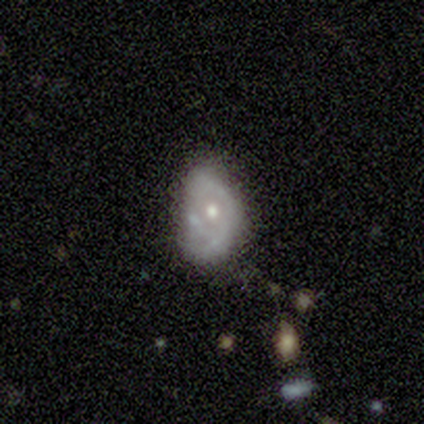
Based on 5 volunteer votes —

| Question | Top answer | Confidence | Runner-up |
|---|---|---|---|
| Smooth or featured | featured or disk | 60% | smooth (20%) |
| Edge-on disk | no | 100% | — |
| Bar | no | 67% | weak (33%) |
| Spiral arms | no | 67% | yes (33%) |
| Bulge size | moderate | 100% | — |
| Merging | none | 50% | minor disturbance (25%) |